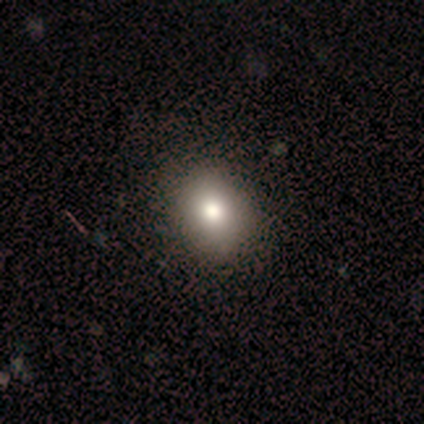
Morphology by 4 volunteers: type=smooth (100%); roundness=in between (75%); merging=none (75%).